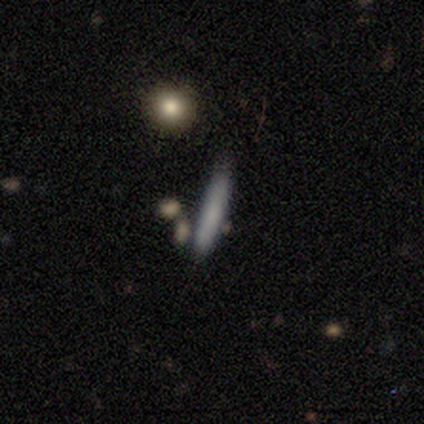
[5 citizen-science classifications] A smooth galaxy with no disk features (80%) that is cigar-shaped (75%). Merging: none (80%).